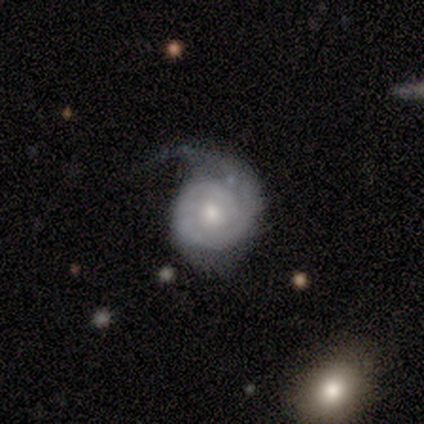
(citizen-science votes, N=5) A featured or disk galaxy (100%) with no bar (80%), 1 (80%) tight (80%) spiral arms (100%) and a moderate central bulge (60%).

Vote fractions:
- Smooth or featured? featured or disk: 100% / smooth: 0% / star or artifact: 0%
- Edge-on disk? no: 100% / yes: 0%
- Bar? no: 80% / weak: 20% / strong: 0%
- Spiral arms? yes: 100% / no: 0%
- Spiral winding? tight: 80% / loose: 20% / medium: 0%
- Spiral arm count? 1: 80% / can't tell: 20% / 2: 0% / 3: 0% / 4: 0% / more than 4: 0%
- Bulge size? moderate: 60% / small: 40% / dominant: 0% / large: 0% / none: 0%
- Merging? none: 60% / minor disturbance: 40% / major disturbance: 0% / merger: 0%